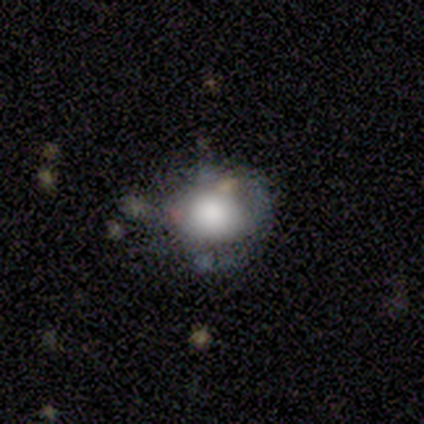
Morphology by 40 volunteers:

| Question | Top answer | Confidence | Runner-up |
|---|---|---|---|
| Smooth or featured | smooth | 62% | featured or disk (28%) |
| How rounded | round | 76% | in between (24%) |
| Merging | none | 72% | minor disturbance (19%) |